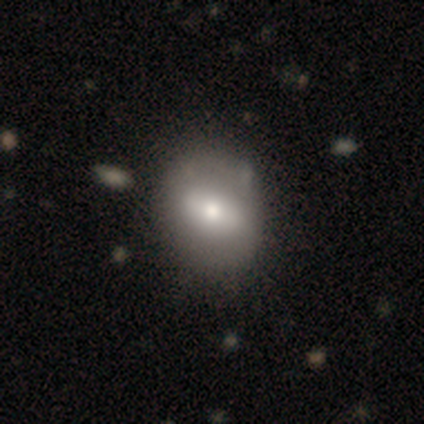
Smooth or featured? 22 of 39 (56%) said smooth. How rounded? 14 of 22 (64%) said round. Merging? 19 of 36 (53%) said none.